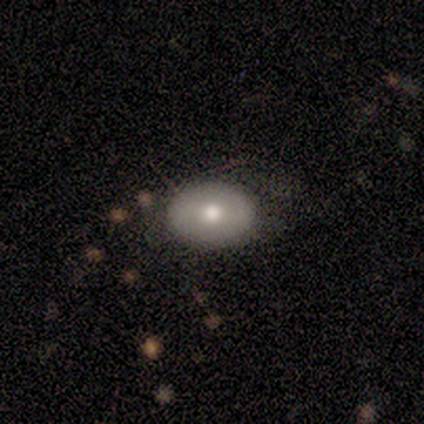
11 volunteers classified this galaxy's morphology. Smooth or featured? 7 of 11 (64%) said smooth. How rounded? 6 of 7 (86%) said in between. Merging? 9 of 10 (90%) said none.